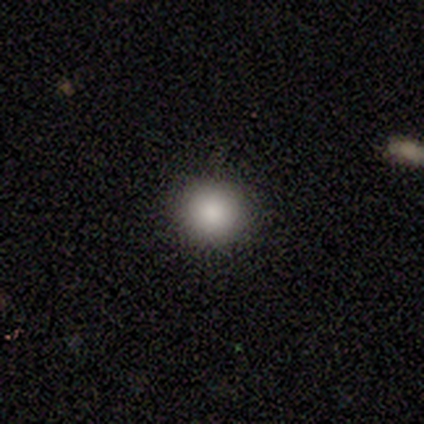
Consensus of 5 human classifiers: Smooth or featured? smooth (100%)
How rounded? round (80%)
Merging? none (80%)